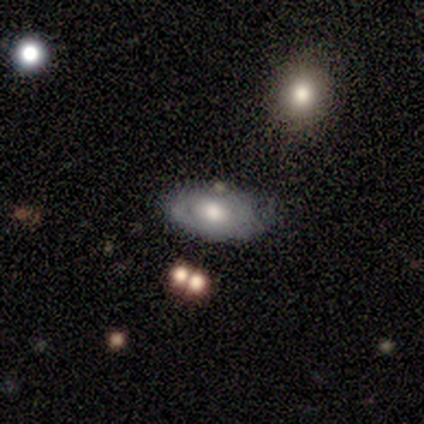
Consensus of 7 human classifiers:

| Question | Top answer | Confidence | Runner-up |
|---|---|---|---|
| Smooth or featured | featured or disk | 57% | smooth (43%) |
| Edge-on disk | no | 75% | yes (25%) |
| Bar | no | 100% | — |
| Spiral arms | yes | 67% | no (33%) |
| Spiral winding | tight | 50% | tied: medium (50%) |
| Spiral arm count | can't tell | 100% | — |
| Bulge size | large | 33% | tied: moderate (33%), small (33%) |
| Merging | none | 57% | major disturbance (29%) |